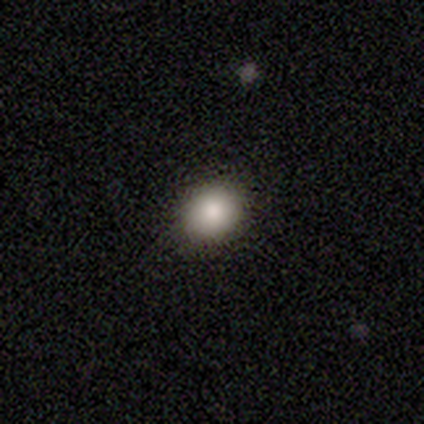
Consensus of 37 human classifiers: Smooth or featured? 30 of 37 (81%) said smooth. How rounded? 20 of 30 (67%) said round. Merging? 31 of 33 (94%) said none.